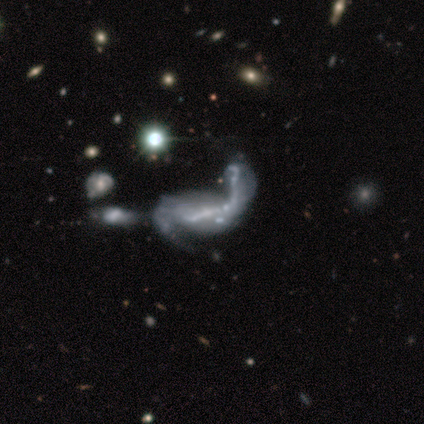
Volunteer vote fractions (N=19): Smooth or featured: featured or disk — 63% (star or artifact — 32%)
Edge-on disk: no — 100%
Bar: no — 58% (strong — 25%)
Spiral arms: yes — 50% (tied with no — 50%)
Spiral winding: loose — 67% (medium — 33%)
Spiral arm count: 2 — 67% (1 — 17%)
Bulge size: none — 83% (large — 8%)
Merging: merger — 54% (none — 23%)